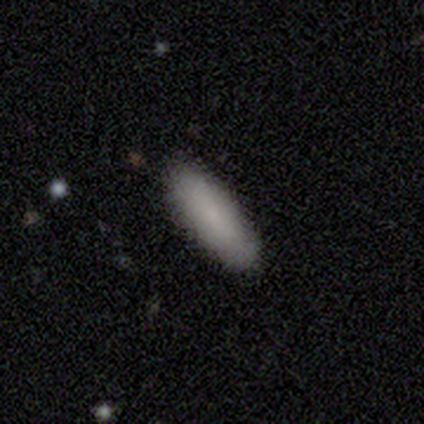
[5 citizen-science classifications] smooth-or-featured: smooth: 100% | featured or disk: 0% | star or artifact: 0%
  how-rounded: in between: 60% | cigar-shaped: 40% | round: 0%
  merging: none: 80% | minor disturbance: 20% | major disturbance: 0% | merger: 0%